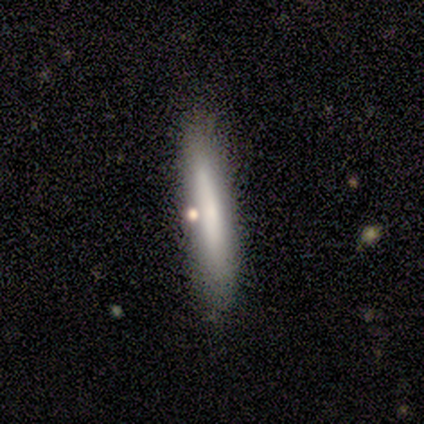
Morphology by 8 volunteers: smooth_or_featured: smooth (p=0.75) [alt: featured or disk p=0.25]
how_rounded: cigar-shaped (p=1.00)
merging: none (p=0.75) [alt: minor disturbance p=0.25]